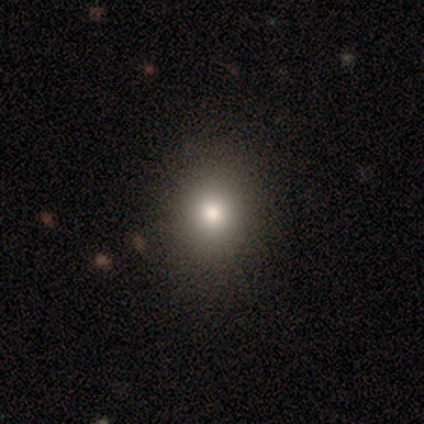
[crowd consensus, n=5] Overall: smooth (60%; featured or disk 20%). How rounded: round (67%; in between 33%). Merging: none (100%).